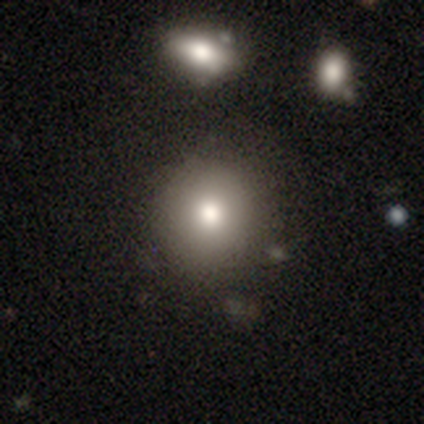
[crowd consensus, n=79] Overall: smooth (89%). How rounded: round (87%). Merging: none (44%; merger 8%).